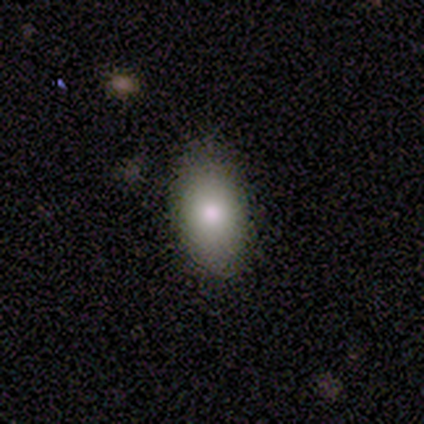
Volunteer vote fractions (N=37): Smooth or featured? 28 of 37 (76%) said smooth. How rounded? 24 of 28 (86%) said in between. Merging? 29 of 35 (83%) said none.